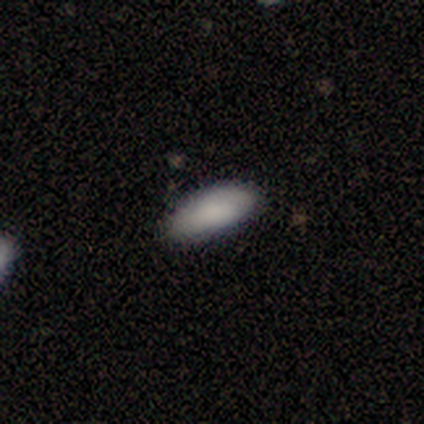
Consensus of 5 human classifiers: Smooth or featured? smooth (100%)
How rounded? in between (100%)
Merging? none (100%)